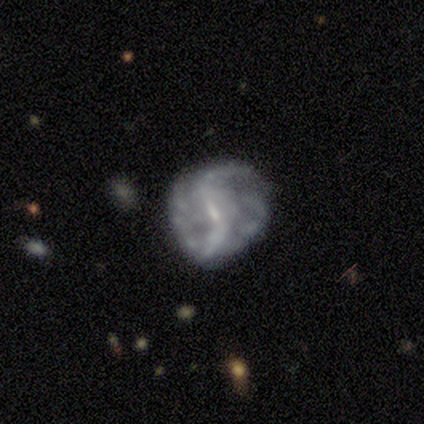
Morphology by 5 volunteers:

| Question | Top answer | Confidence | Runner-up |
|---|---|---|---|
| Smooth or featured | featured or disk | 100% | — |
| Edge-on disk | no | 100% | — |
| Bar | strong | 60% | weak (40%) |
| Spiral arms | yes | 100% | — |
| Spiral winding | loose | 80% | medium (20%) |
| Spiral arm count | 2 | 40% | tied: can't tell (40%) |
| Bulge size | small | 40% | large (20%) |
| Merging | none | 60% | minor disturbance (20%) |